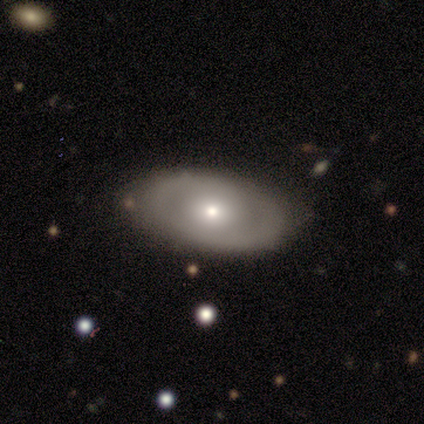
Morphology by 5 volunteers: Volunteers were most divided on "spiral winding" (2-way tie): tight: 50%, medium: 50%, loose: 0%; "spiral arm count" (2-way tie): 2: 50%, can't tell: 50%, 1: 0%, 3: 0%, 4: 0%, more than 4: 0%. More confident: edge-on disk — no (100%); bar — no (100%); merging — none (100%); spiral arms — yes (67%); bulge size — small (67%); smooth or featured — featured or disk (60%).